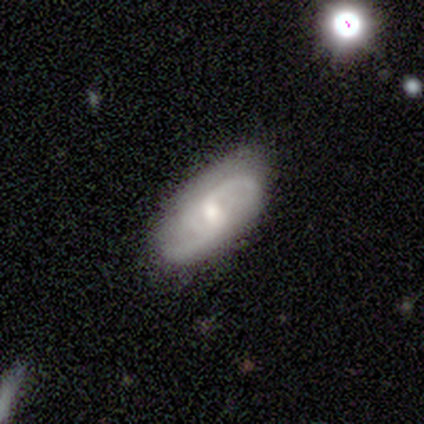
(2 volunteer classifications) A featured or disk galaxy (100%) with a weak bar (50%, tied with no), 2 (100%) medium (50%, tied with loose) spiral arms (100%) and a small central bulge (100%). Merging: none (50%, tied with major disturbance).